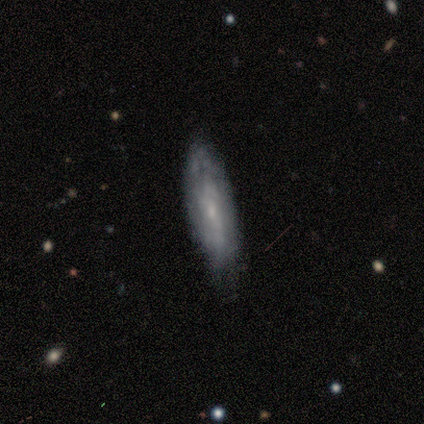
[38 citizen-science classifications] Smooth or featured: featured or disk — 58% (smooth — 37%)
Edge-on disk: no — 77% (yes — 23%)
Bar: no — 65% (weak — 29%)
Spiral arms: yes — 59% (no — 41%)
Spiral winding: tight — 40% (tied with medium — 40%)
Spiral arm count: can't tell — 70% (2 — 20%)
Bulge size: small — 88% (none — 12%)
Merging: none — 72% (minor disturbance — 19%)